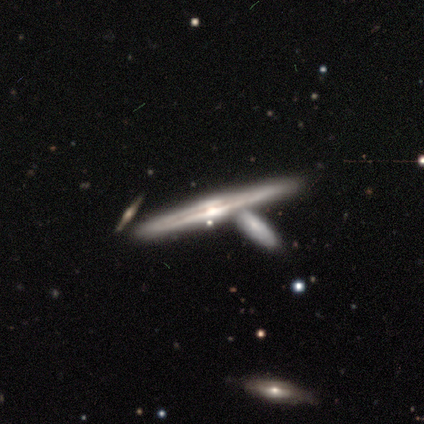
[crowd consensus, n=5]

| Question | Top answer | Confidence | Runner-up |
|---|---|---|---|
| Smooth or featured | featured or disk | 100% | — |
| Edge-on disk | yes | 100% | — |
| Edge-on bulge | rounded | 100% | — |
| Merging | none | 60% | merger (40%) |